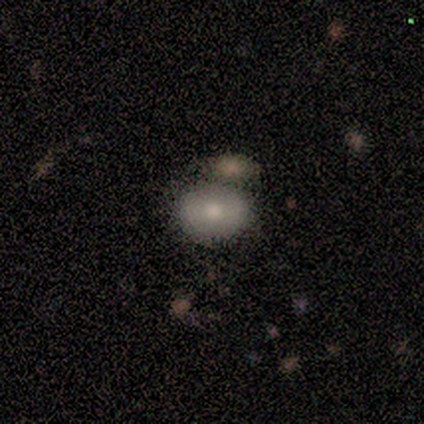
Smooth or featured? smooth (60%)
How rounded? in between (67%)
Merging? merger (80%)